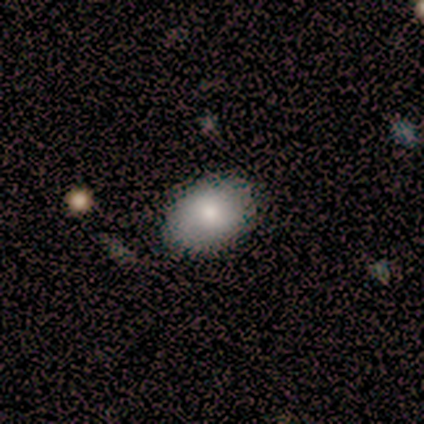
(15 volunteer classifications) Smooth or featured: smooth — 100%
How rounded: in between — 93% (cigar-shaped — 7%)
Merging: none — 73% (minor disturbance — 27%)